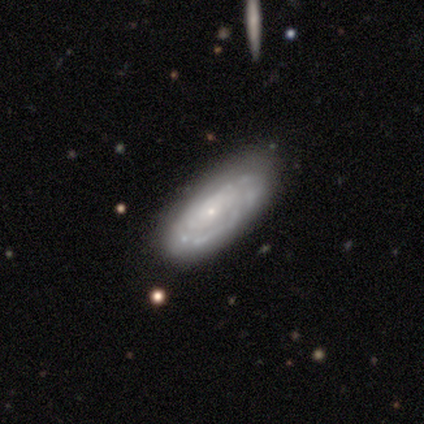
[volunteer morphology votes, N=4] A smooth galaxy with no disk features (50%, tied with featured or disk) that is in between round and cigar-shaped (100%).

Vote fractions:
- Smooth or featured? smooth: 50% (tied) / featured or disk: 50% (tied) / star or artifact: 0%
- How rounded? in between: 100% / round: 0% / cigar-shaped: 0%
- Merging? none: 75% / minor disturbance: 25% / major disturbance: 0% / merger: 0%